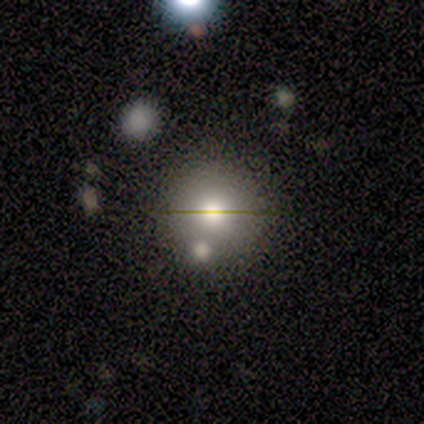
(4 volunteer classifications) Smooth or featured? smooth (50%)
How rounded? round (100%)
Merging? none (100%)